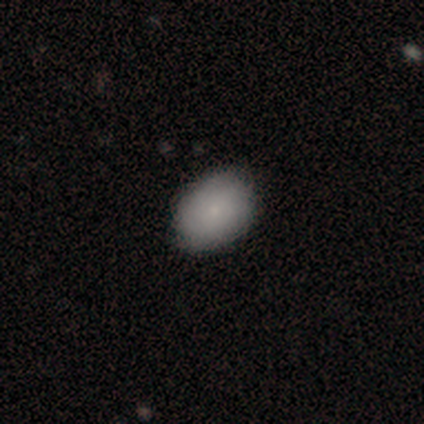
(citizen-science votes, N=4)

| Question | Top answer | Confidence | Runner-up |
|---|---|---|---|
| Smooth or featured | smooth | 75% | featured or disk (25%) |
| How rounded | in between | 67% | round (33%) |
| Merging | none | 100% | — |